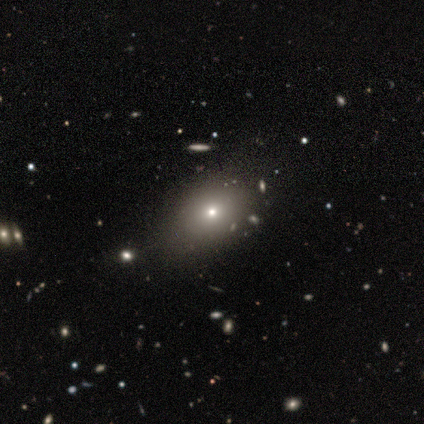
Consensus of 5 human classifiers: A featured or disk galaxy (40%, tied with star or artifact) with no bar (100%), no spiral arms (100%) and a large central bulge (50%, tied with moderate).

Vote fractions:
- Smooth or featured? featured or disk: 40% (tied) / star or artifact: 40% (tied) / smooth: 20%
- Edge-on disk? no: 100% / yes: 0%
- Bar? no: 100% / strong: 0% / weak: 0%
- Spiral arms? no: 100% / yes: 0%
- Bulge size? large: 50% (tied) / moderate: 50% (tied) / dominant: 0% / small: 0% / none: 0%
- Merging? none: 100% / minor disturbance: 0% / major disturbance: 0% / merger: 0%